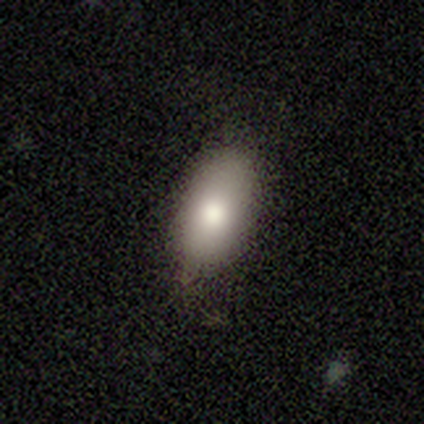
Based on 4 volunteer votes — smooth_or_featured: smooth (p=1.00)
how_rounded: in between (p=1.00)
merging: none (p=1.00)